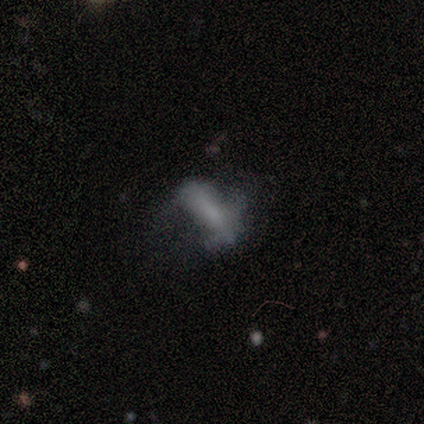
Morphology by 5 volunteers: Volunteers were most divided on "spiral arms" (2-way tie): yes: 50%, no: 50%; "spiral winding" (2-way tie): medium: 50%, loose: 50%, tight: 0%; "spiral arm count" (2-way tie): 4: 50%, can't tell: 50%, 1: 0%, 2: 0%, 3: 0%, more than 4: 0%; "bulge size" (2-way tie): small: 50%, none: 50%, dominant: 0%, large: 0%, moderate: 0%; "merging" (2-way tie): minor disturbance: 50%, major disturbance: 50%, none: 0%, merger: 0%. More confident: edge-on disk — no (100%); smooth or featured — featured or disk (80%); bar — strong (50%).